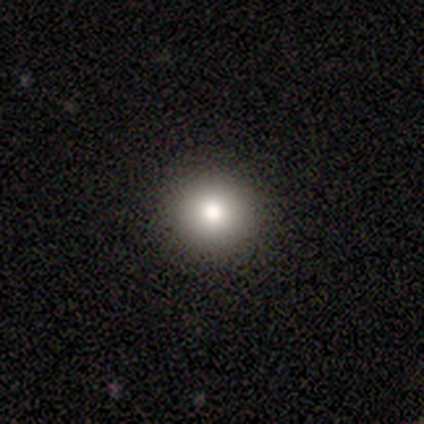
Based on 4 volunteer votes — Overall: smooth (100%). How rounded: round (100%). Merging: none (100%).